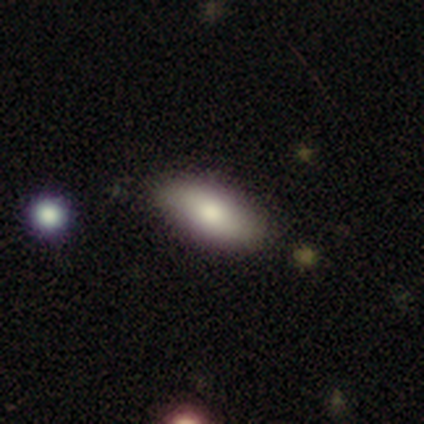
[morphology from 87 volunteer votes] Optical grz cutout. It shows a smooth galaxy with no disk features (69%) that is in between round and cigar-shaped (77%). Merging: none (75%).